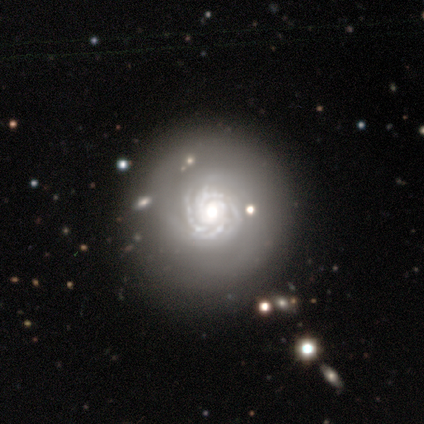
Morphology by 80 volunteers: featured or disk 91%, star or artifact 8%, smooth 1%. Down the decision tree: edge-on disk — no (97%); bar — no (73%); spiral arms — yes (99%); spiral arm count — 4 (39%); spiral winding — tight (86%); bulge size — moderate (45%); merging — none (70%).